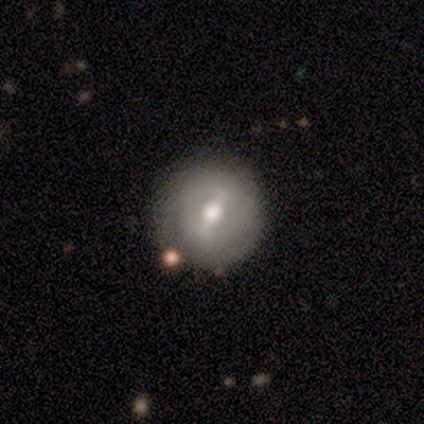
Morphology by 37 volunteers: Smooth or featured: featured or disk — 65% (smooth — 30%)
Edge-on disk: no — 92% (yes — 8%)
Bar: strong — 50% (weak — 45%)
Spiral arms: no — 77% (yes — 23%)
Bulge size: moderate — 82% (large — 9%)
Merging: none — 91% (minor disturbance — 9%)